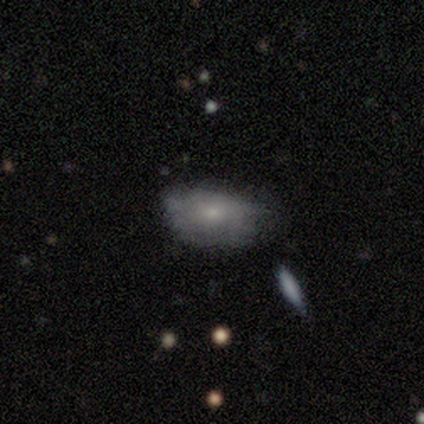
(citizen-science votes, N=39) smooth_or_featured: smooth (p=0.72) [alt: featured or disk p=0.26]
how_rounded: in between (p=0.89) [alt: round p=0.11]
merging: none (p=0.55) [alt: minor disturbance p=0.29]